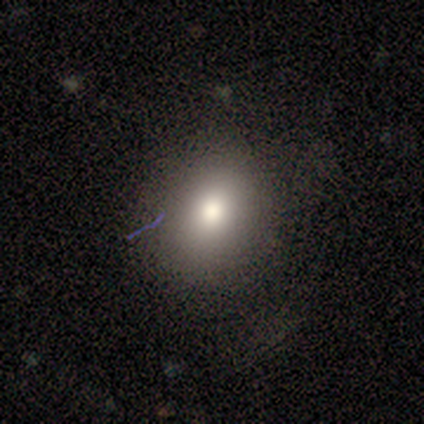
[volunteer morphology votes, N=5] smooth-or-featured: smooth: 80% | featured or disk: 20% | star or artifact: 0%
  how-rounded: round: 50% (tied) | in between: 50% (tied) | cigar-shaped: 0%
  merging: none: 80% | major disturbance: 20% | minor disturbance: 0% | merger: 0%